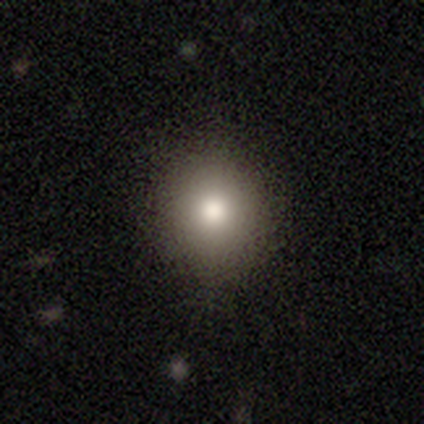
smooth_or_featured: smooth (p=0.85) [alt: featured or disk p=0.08]
how_rounded: round (p=0.88) [alt: in between p=0.12]
merging: none (p=0.94) [alt: minor disturbance p=0.03]